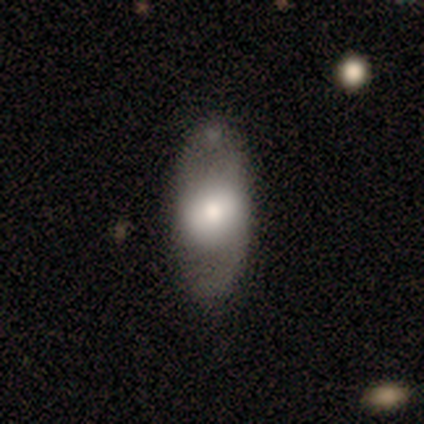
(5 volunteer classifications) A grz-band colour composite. It shows a smooth galaxy with no disk features (80%) that is in between round and cigar-shaped (100%). Merging: none (60%).